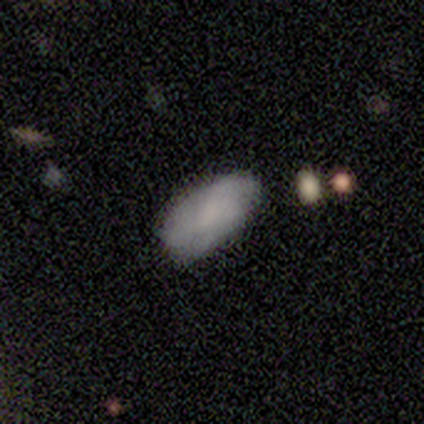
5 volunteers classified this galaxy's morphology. This is likely a smooth galaxy (60%). How rounded: clearly in between (100%). Merging: clearly none (100%).